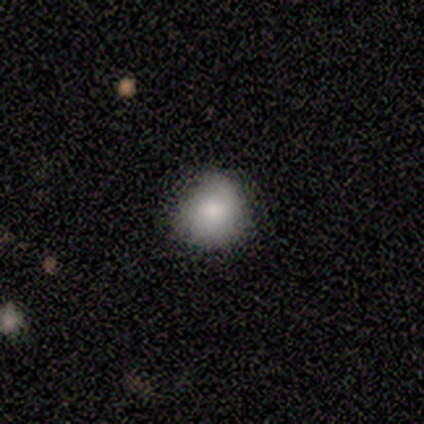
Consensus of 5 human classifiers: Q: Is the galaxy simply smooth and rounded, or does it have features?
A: smooth — 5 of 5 (100%).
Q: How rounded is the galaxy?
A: round — 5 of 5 (100%).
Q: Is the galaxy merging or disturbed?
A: minor disturbance — 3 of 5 (60%).